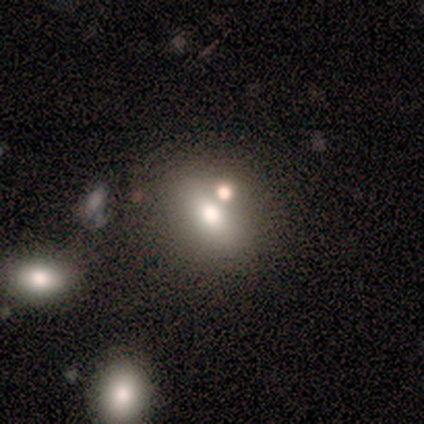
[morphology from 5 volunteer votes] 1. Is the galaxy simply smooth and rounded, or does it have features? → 80% smooth, 20% star or artifact, 0% featured or disk.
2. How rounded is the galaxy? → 50% round, 25% in between, 25% cigar-shaped.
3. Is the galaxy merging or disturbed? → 50% none (tied), 50% merger (tied), 0% minor disturbance, 0% major disturbance.